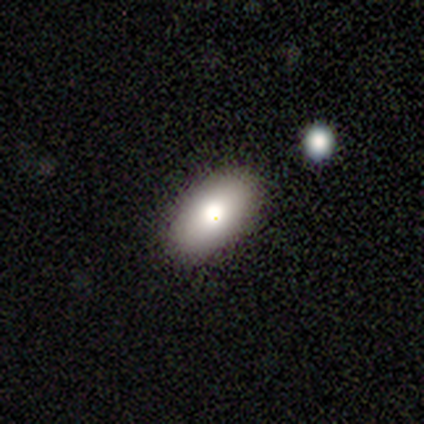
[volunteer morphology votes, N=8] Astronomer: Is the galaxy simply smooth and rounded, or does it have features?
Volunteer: smooth — 88%.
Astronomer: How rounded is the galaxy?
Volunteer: in between — 100%.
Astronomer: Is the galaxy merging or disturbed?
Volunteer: none — 100%.